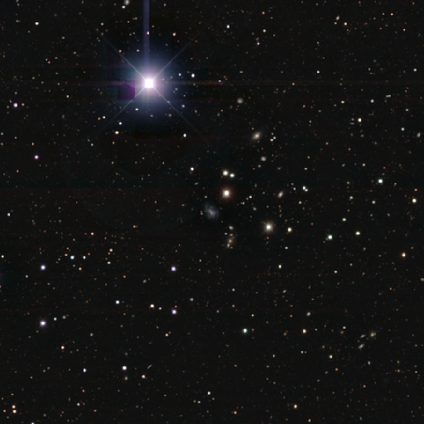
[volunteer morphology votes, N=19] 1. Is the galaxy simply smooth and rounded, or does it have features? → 63% star or artifact, 21% featured or disk, 16% smooth.